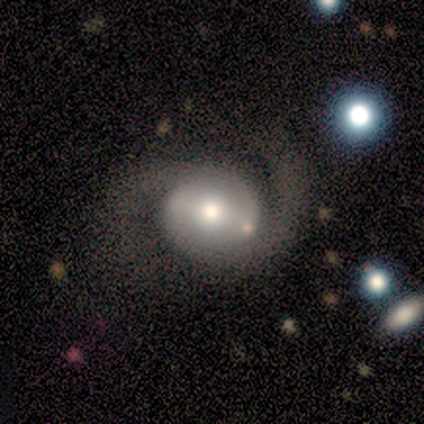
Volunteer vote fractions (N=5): Smooth or featured: featured or disk — 60% (smooth — 40%)
Edge-on disk: no — 100%
Bar: weak — 100%
Spiral arms: yes — 100%
Spiral winding: tight — 33% (tied with medium — 33%; loose — 33%)
Spiral arm count: 1 — 67% (2 — 33%)
Bulge size: moderate — 67% (small — 33%)
Merging: none — 60% (major disturbance — 40%)